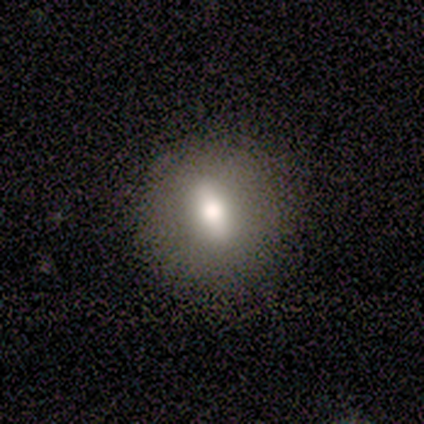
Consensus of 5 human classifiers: Volunteers were most divided on "bulge size" (2-way tie): large: 50%, moderate: 50%, dominant: 0%, small: 0%, none: 0%. More confident: bar — weak (100%); spiral arms — no (100%); edge-on disk — no (67%); merging — none (67%); smooth or featured — featured or disk (60%).